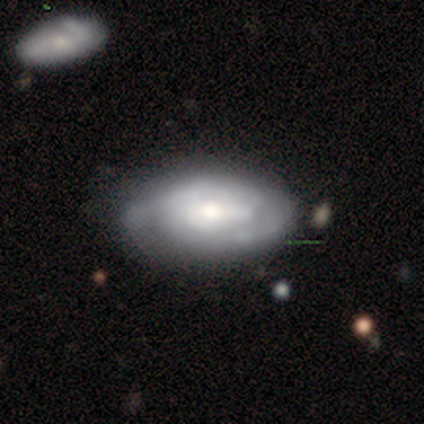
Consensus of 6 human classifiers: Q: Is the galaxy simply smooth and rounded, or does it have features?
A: featured or disk — 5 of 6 (83%).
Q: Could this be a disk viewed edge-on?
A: no — 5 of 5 (100%).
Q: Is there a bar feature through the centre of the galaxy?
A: weak — 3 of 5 (60%).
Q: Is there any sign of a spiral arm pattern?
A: yes — 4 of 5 (80%).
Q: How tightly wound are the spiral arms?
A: tight — 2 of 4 (50%).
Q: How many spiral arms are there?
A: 2 — 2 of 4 (50%).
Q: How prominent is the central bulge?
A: moderate — 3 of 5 (60%).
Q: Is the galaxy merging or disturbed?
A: none — 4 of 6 (67%).